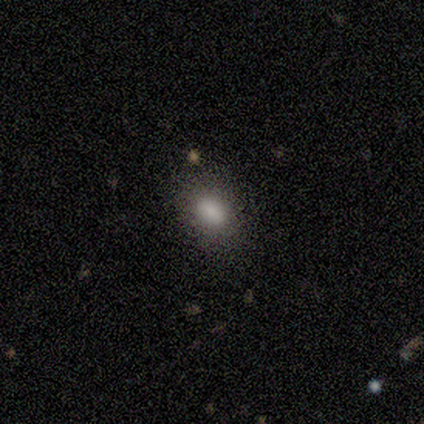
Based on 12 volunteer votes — A smooth galaxy with no disk features (83%) that is in between round and cigar-shaped (90%). Merging: none (67%).